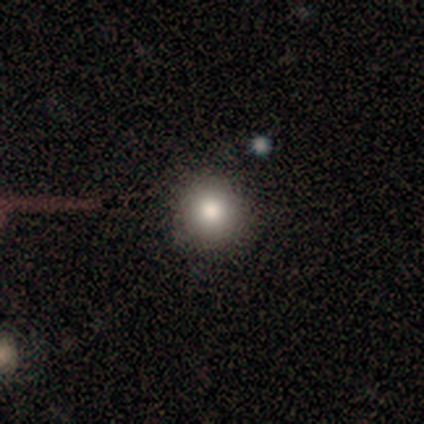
Overall: smooth (81%). How rounded: round (90%). Merging: none (92%).